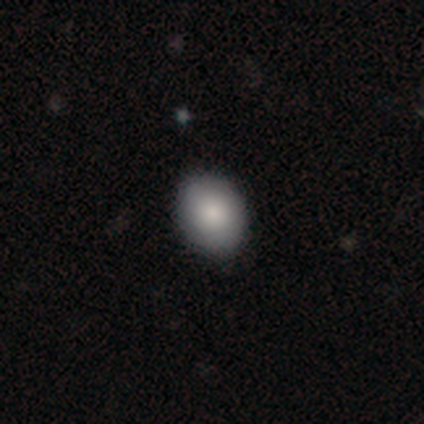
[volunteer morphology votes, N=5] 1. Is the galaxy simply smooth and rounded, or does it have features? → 80% smooth, 20% star or artifact, 0% featured or disk.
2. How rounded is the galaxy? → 50% in between, 25% round, 25% cigar-shaped.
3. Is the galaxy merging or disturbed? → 100% none, 0% minor disturbance, 0% major disturbance, 0% merger.